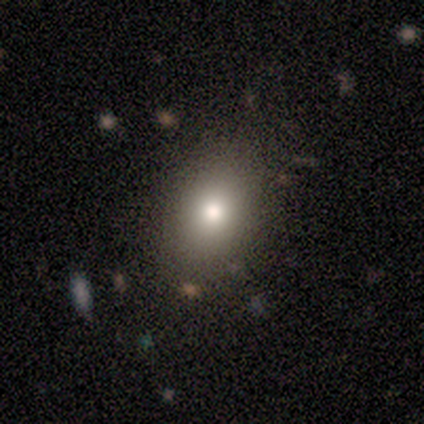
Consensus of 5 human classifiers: Q: Smooth or featured?
A: smooth (60%); runner-up: featured or disk (20%)
Q: How rounded?
A: in between (100%)
Q: Merging?
A: none (100%)